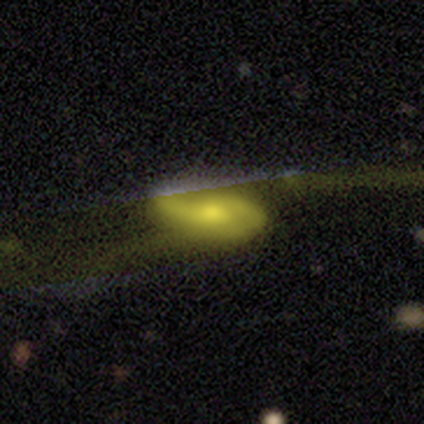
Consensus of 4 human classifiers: A featured or disk galaxy (75%) with no bar (67%), 2 (100%) tight (33%, tied with medium and loose) spiral arms (100%) and a large central bulge (33%, tied with moderate and small). Merging: none (75%).